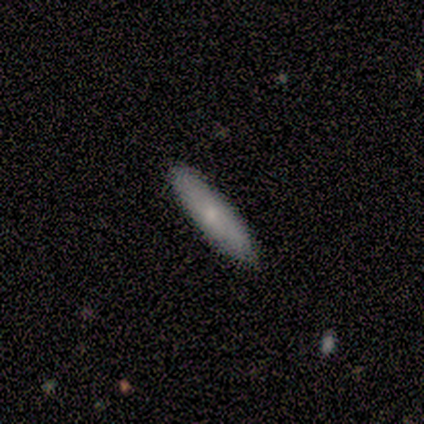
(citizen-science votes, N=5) smooth_or_featured: smooth (p=0.60) [alt: featured or disk p=0.40]
how_rounded: cigar-shaped (p=0.67) [alt: in between p=0.33]
merging: none (p=1.00)